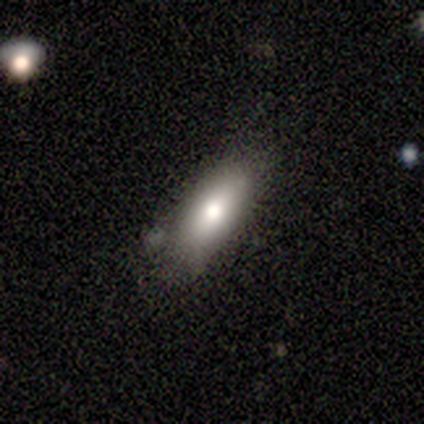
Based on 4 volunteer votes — smooth_or_featured: featured or disk (p=0.75) [alt: smooth p=0.25]
disk_edge_on: yes (p=0.67) [alt: no p=0.33]
edge_on_bulge: rounded (p=1.00)
merging: none (p=0.75) [alt: minor disturbance p=0.25]